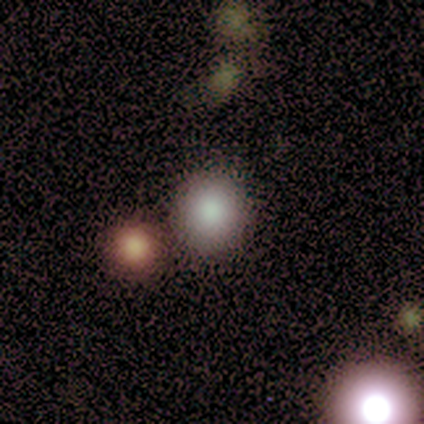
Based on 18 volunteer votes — Smooth or featured? 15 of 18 (83%) said smooth. How rounded? 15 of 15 (100%) said round. Merging? 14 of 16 (88%) said none.